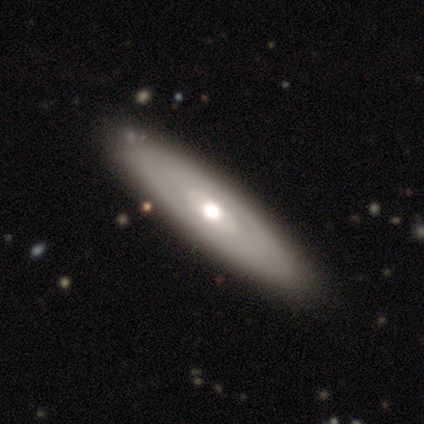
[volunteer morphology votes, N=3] Overall: featured or disk (67%; smooth 33%). Edge-on disk: no (100%). Bar: no (100%). Spiral arms: yes (50%, tied with no). Spiral arm count: can't tell (100%). Spiral winding: tight (100%). Bulge size: moderate (100%). Merging: none (67%; minor disturbance 33%).